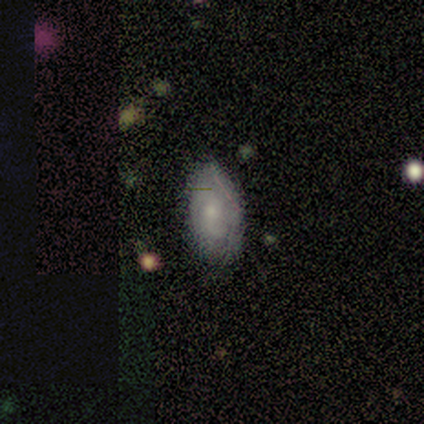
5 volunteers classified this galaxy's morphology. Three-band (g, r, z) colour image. It shows a featured or disk galaxy (80%) with no bar (75%), 3 (50%) tight (75%) spiral arms (100%) and a moderate central bulge (50%, tied with small). Merging: none (100%).